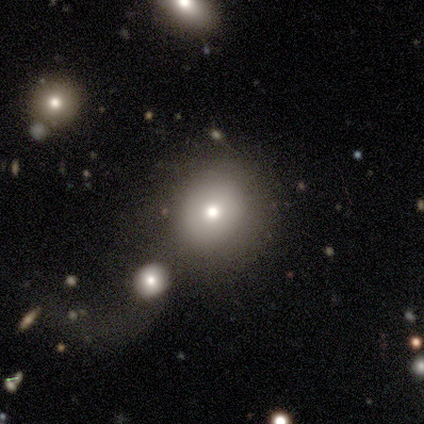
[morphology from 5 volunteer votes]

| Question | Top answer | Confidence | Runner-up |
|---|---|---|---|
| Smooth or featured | smooth | 80% | featured or disk (20%) |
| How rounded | round | 100% | — |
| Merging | none | 80% | merger (20%) |